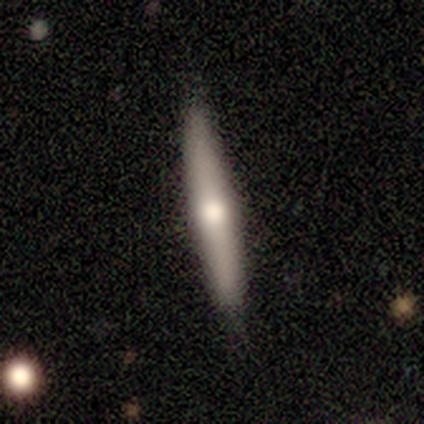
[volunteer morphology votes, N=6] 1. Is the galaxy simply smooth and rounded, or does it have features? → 50% smooth (tied), 50% featured or disk (tied), 0% star or artifact.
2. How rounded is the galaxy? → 100% cigar-shaped, 0% round, 0% in between.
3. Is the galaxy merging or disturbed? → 67% none, 33% minor disturbance, 0% major disturbance, 0% merger.